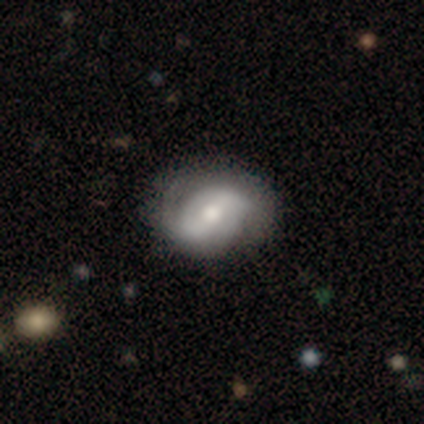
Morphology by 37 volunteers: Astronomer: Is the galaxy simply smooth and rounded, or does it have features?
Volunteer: featured or disk — 68%.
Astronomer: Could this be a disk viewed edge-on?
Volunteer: no — 96%.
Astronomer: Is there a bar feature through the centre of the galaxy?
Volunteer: weak — 50% (runner-up: no, 29%).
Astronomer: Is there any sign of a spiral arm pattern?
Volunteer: yes — 79%.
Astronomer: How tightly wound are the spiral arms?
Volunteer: medium — 47% (runner-up: tight, 37%).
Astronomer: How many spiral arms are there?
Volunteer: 2 — 84%.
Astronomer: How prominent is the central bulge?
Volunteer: moderate — 67%.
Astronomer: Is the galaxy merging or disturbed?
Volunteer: none — 76%.